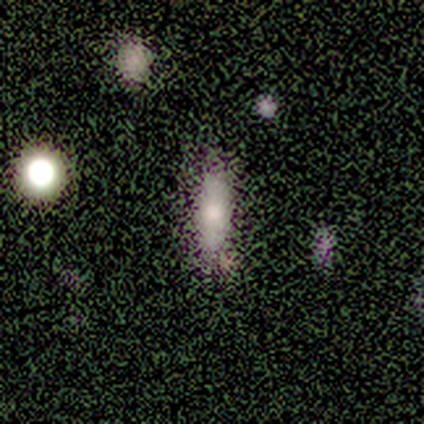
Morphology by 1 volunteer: Smooth or featured? smooth (100%)
How rounded? in between (100%)
Merging? major disturbance (100%)